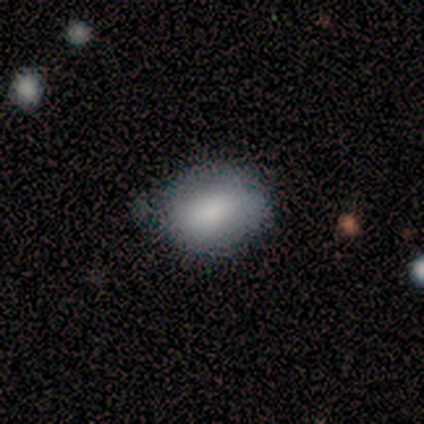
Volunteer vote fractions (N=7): This is clearly a smooth galaxy (100%). How rounded: likely in between (71%). Merging: possibly none (57%).